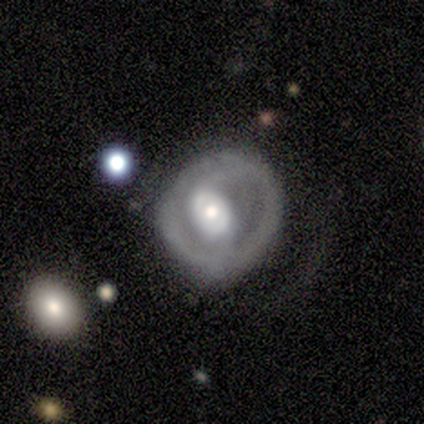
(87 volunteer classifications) Morphology: type=featured or disk (79%); edge-on=no (100%); bar=no (65%); spiral arms=yes (52%); winding=tight (44%); arm count=2 (72%); bulge=moderate (45%); merging=none (46%).